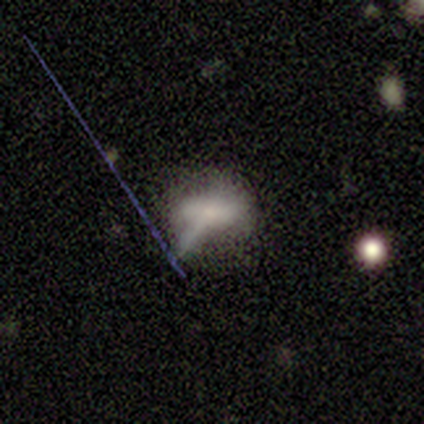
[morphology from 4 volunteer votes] This appears to be a featured or disk galaxy (75%) with no bar (100%), no spiral arms (100%) and a small central bulge (50%, tied with none). Merging: major disturbance (67%).